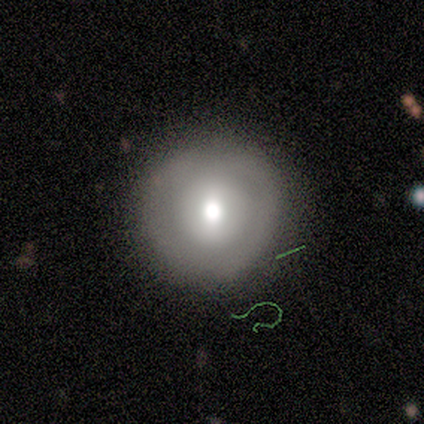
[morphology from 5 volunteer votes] Volunteers were most divided on "bar": no: 50%, strong: 25%, weak: 25%. More confident: edge-on disk — no (100%); smooth or featured — featured or disk (80%); merging — none (80%); spiral arms — no (75%); bulge size — moderate (75%).